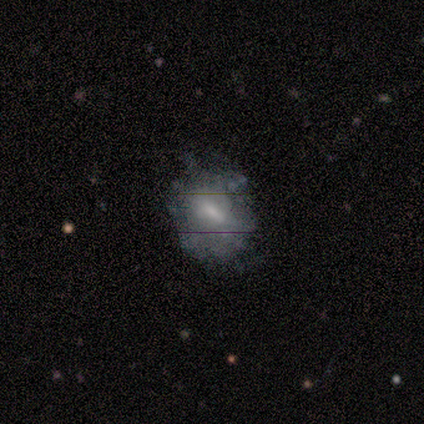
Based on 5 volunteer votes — Smooth or featured? featured or disk (60%)
Edge-on disk? no (100%)
Bar? strong (67%)
Spiral arms? no (67%)
Bulge size? moderate (100%)
Merging? minor disturbance (40%, tied with major disturbance)